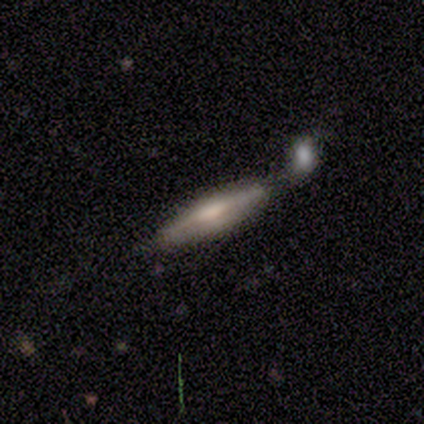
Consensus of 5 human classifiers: Smooth or featured: featured or disk — 60% (smooth — 40%)
Edge-on disk: yes — 100%
Edge-on bulge: boxy — 33% (tied with none — 33%; rounded — 33%)
Merging: merger — 80% (major disturbance — 20%)